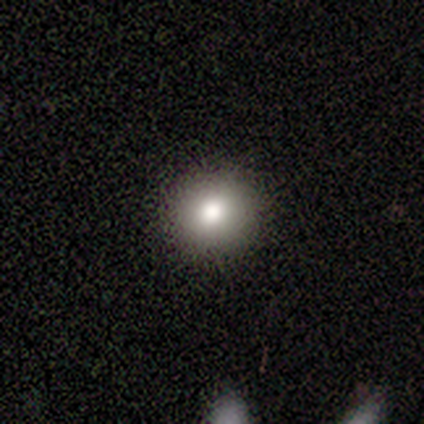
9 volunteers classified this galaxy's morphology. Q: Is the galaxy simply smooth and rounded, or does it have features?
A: smooth — 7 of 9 (78%).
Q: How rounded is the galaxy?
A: round — 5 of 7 (71%).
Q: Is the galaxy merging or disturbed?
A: none — 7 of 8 (88%).